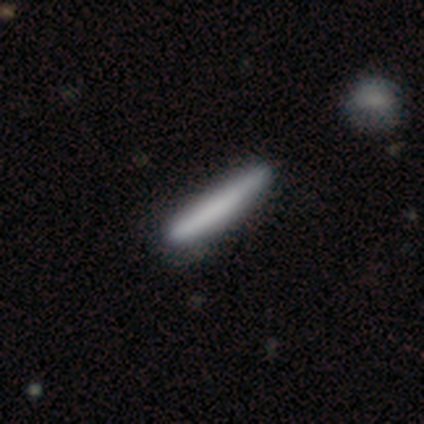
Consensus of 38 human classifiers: Volunteers were most divided on "smooth or featured": smooth: 71%, featured or disk: 26%, star or artifact: 3%. More confident: how rounded — cigar-shaped (96%); merging — none (54%).